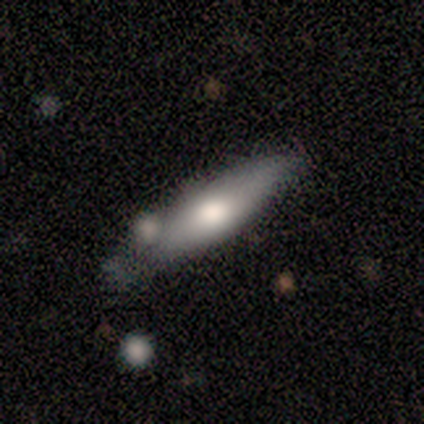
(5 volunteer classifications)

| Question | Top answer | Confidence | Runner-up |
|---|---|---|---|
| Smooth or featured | smooth | 80% | featured or disk (20%) |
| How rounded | cigar-shaped | 100% | — |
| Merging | none | 60% | minor disturbance (40%) |